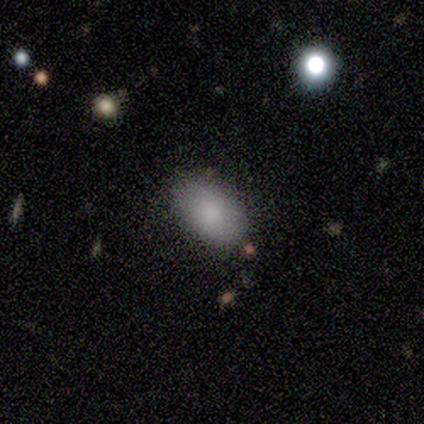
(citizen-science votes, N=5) This is clearly a smooth galaxy (100%). How rounded: clearly in between (100%). Merging: clearly none (80%).